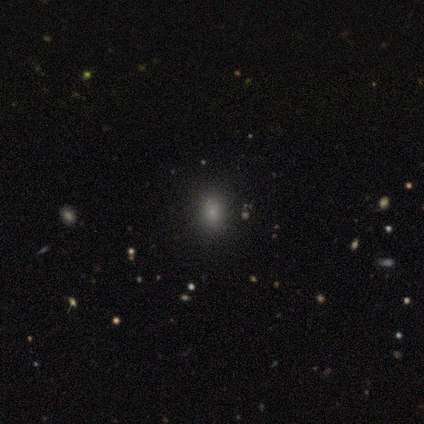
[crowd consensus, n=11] smooth 64%, star or artifact 27%, featured or disk 9%. Down the decision tree: how rounded — in between (71%); merging — none (75%).